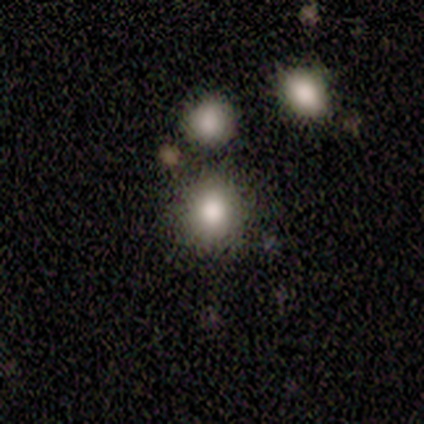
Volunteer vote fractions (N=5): Smooth or featured? 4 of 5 (80%) said smooth. How rounded? 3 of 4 (75%) said round. Merging? 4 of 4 (100%) said none.